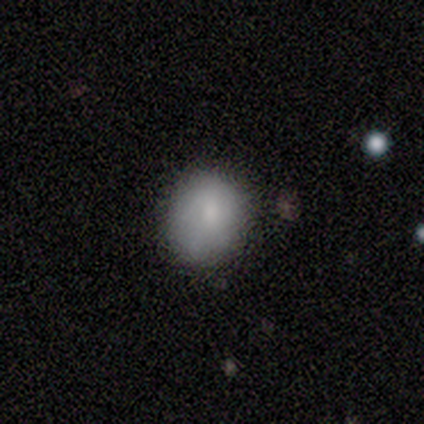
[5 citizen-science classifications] This is clearly a smooth galaxy (80%). How rounded: likely round (75%). Merging: clearly none (80%).